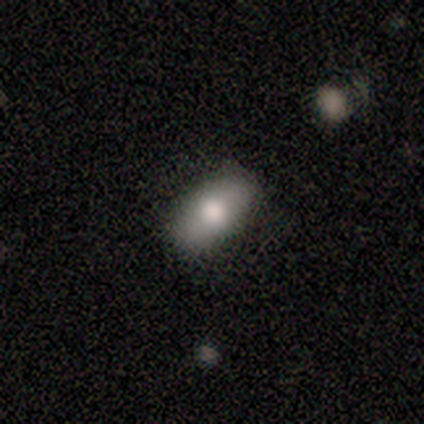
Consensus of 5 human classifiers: smooth_or_featured: smooth (p=0.60) [alt: featured or disk p=0.40]
how_rounded: in between (p=0.67) [alt: round p=0.33]
merging: none (p=0.80) [alt: minor disturbance p=0.20]